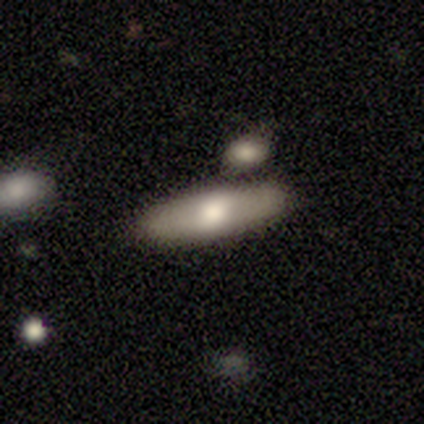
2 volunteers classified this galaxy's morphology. type=smooth (50%, tied with featured or disk); roundness=cigar-shaped (100%); merging=none (50%, tied with minor disturbance).